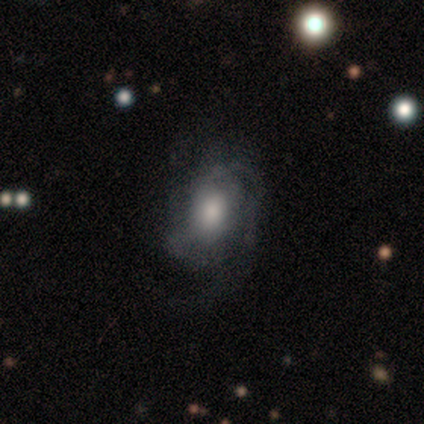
Overall: smooth (100%). How rounded: in between (100%). Merging: minor disturbance (100%).